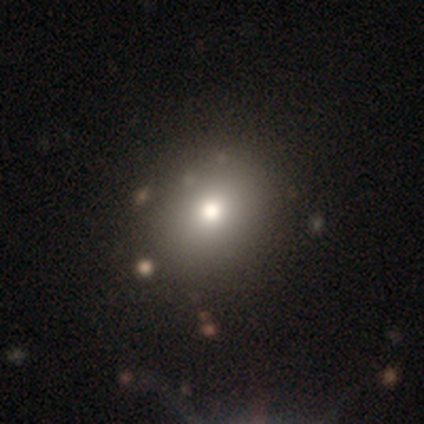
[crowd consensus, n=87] This appears to be a smooth galaxy with no disk features (68%) that is round (76%). Merging: none (85%).